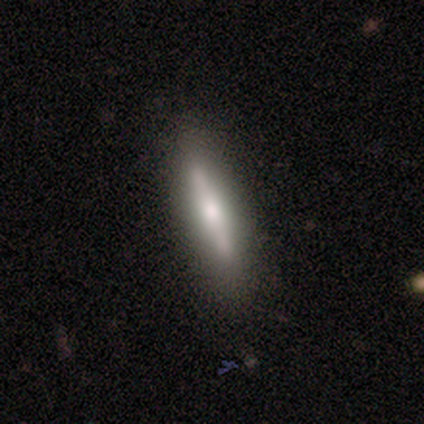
smooth-or-featured: smooth: 50% (tied) | featured or disk: 50% (tied) | star or artifact: 0%
  how-rounded: cigar-shaped: 100% | round: 0% | in between: 0%
  merging: none: 75% | minor disturbance: 25% | major disturbance: 0% | merger: 0%